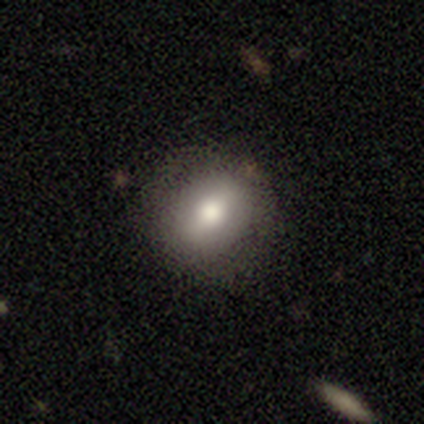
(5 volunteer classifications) Morphology: type=smooth (80%); roundness=round (50%, tied with in between); merging=none (100%).